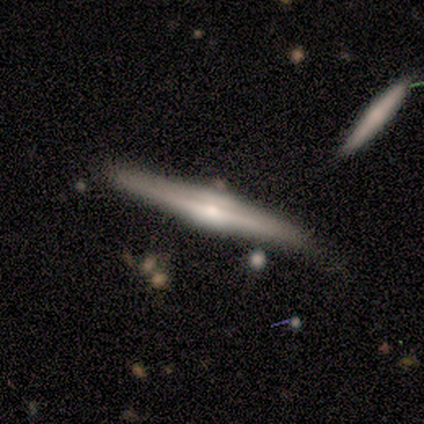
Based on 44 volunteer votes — Morphology: type=featured or disk (82%); edge-on=yes (100%); edge-on bulge=rounded (67%); merging=none (79%).